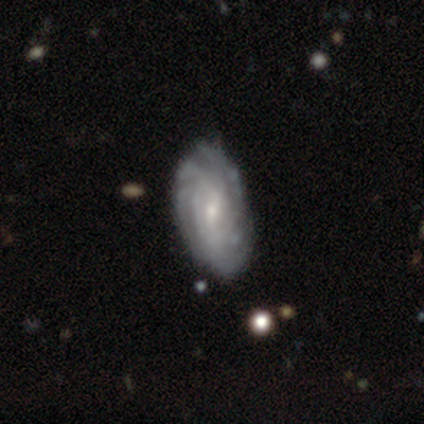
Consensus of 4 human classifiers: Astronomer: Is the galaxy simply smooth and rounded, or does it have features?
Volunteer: featured or disk — 100%.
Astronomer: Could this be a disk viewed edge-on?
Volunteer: no — 100%.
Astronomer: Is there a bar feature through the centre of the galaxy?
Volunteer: weak — 100%.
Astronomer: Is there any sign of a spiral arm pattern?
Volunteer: yes — 100%.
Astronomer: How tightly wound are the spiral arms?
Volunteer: tight — 100%.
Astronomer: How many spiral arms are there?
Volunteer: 4 — 50%.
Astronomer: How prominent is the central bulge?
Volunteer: small — 75%.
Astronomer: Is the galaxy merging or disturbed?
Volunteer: none — 75%.